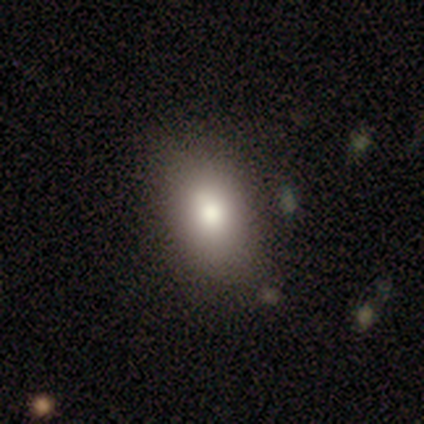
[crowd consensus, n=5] Volunteers were most divided on "merging": minor disturbance: 60%, none: 40%, major disturbance: 0%, merger: 0%. More confident: smooth or featured — smooth (80%); how rounded — in between (50%).